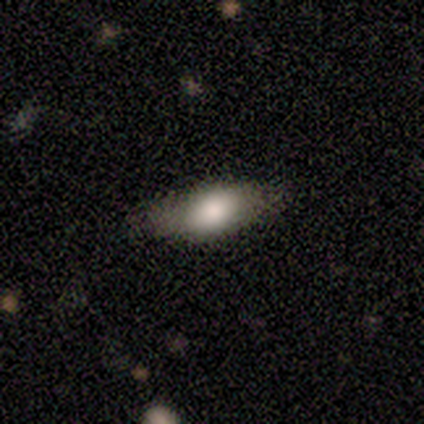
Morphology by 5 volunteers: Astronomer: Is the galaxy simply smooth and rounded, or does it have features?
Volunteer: smooth — 60% (runner-up: featured or disk, 40%).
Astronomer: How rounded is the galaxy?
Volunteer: in between — 67%.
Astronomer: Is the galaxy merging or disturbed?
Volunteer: none — 80%.